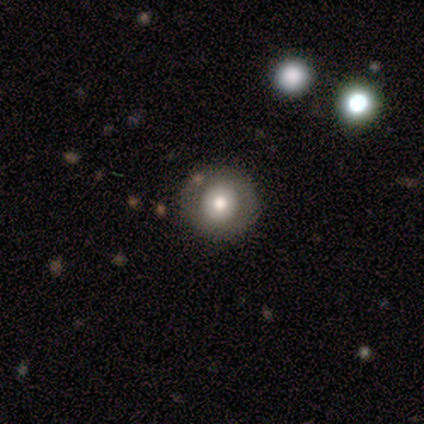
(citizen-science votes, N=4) smooth-or-featured: featured or disk: 100% | smooth: 0% | star or artifact: 0%
  disk-edge-on: no: 100% | yes: 0%
    bar: no: 100% | strong: 0% | weak: 0%
    has-spiral-arms: yes: 50% (tied) | no: 50% (tied)
      spiral-winding: medium: 100% | tight: 0% | loose: 0%
      spiral-arm-count: can't tell: 100% | 1: 0% | 2: 0% | 3: 0% | 4: 0% | more than 4: 0%
    bulge-size: large: 50% | moderate: 25% | small: 25% | dominant: 0% | none: 0%
  merging: none: 100% | minor disturbance: 0% | major disturbance: 0% | merger: 0%